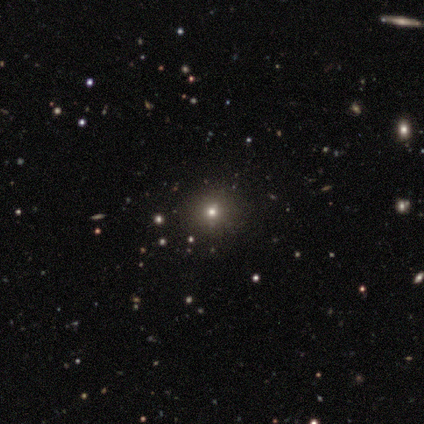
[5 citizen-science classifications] Overall: star or artifact (60%; smooth 40%).